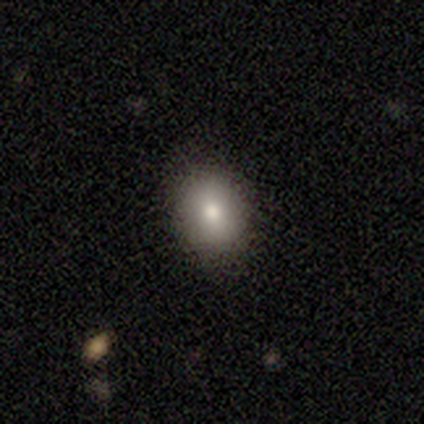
Smooth or featured?
  - smooth: 80% *
  - featured or disk: 20%
  - star or artifact: 0%
How rounded?
  - round: 50% * (tied)
  - in between: 50% * (tied)
  - cigar-shaped: 0%
Merging?
  - none: 100% *
  - minor disturbance: 0%
  - major disturbance: 0%
  - merger: 0%